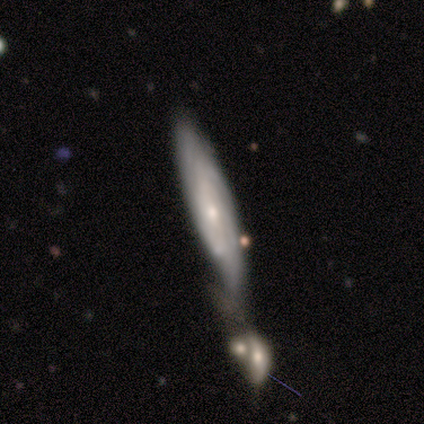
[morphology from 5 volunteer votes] Q: Smooth or featured?
A: featured or disk (80%); runner-up: smooth (20%)
Q: Edge-on disk?
A: no (75%); runner-up: yes (25%)
Q: Bar?
A: no (67%); runner-up: strong (33%)
Q: Spiral arms?
A: yes (100%)
Q: Spiral winding?
A: tight (67%); runner-up: medium (33%)
Q: Spiral arm count?
A: can't tell (100%)
Q: Bulge size?
A: small (67%); runner-up: moderate (33%)
Q: Merging?
A: merger (60%); runner-up: none (20%)